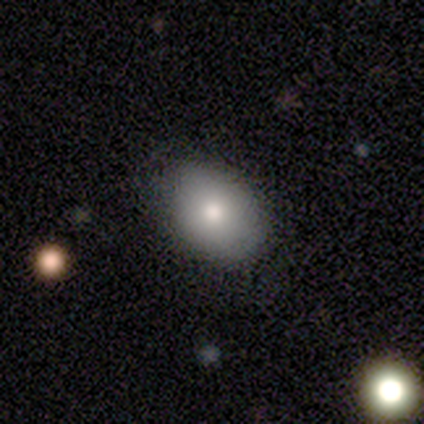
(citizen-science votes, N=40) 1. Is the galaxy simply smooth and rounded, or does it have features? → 75% smooth, 15% featured or disk, 10% star or artifact.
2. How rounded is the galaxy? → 70% in between, 30% round, 0% cigar-shaped.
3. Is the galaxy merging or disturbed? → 83% none, 17% minor disturbance, 0% major disturbance, 0% merger.